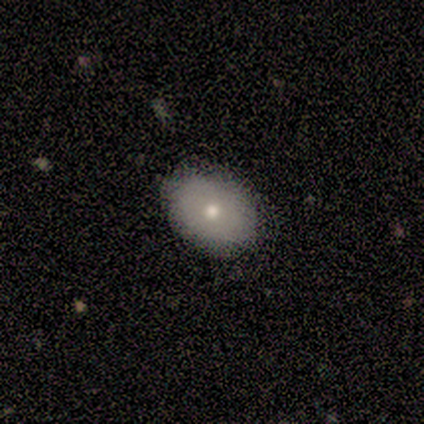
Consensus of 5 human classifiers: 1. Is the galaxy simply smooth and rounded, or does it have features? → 60% smooth, 40% featured or disk, 0% star or artifact.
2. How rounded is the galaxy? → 67% in between, 33% round, 0% cigar-shaped.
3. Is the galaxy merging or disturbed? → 100% none, 0% minor disturbance, 0% major disturbance, 0% merger.